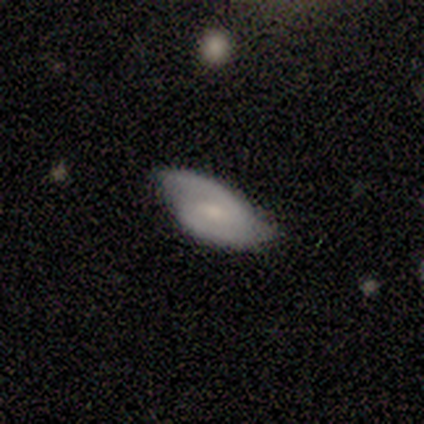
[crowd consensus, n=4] Volunteers were most divided on "spiral winding" (2-way tie): tight: 50%, medium: 50%, loose: 0%; "bulge size" (2-way tie): moderate: 50%, small: 50%, dominant: 0%, large: 0%, none: 0%. More confident: bar — weak (100%); spiral arms — yes (100%); spiral arm count — 2 (100%); merging — none (100%); smooth or featured — featured or disk (75%); edge-on disk — no (67%).